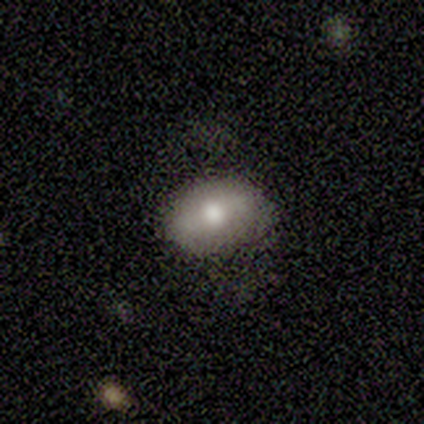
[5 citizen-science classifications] Volunteers were most divided on "smooth or featured": featured or disk: 60%, smooth: 40%, star or artifact: 0%. More confident: edge-on disk — no (100%); bar — no (100%); merging — none (100%); spiral arms — no (67%); bulge size — moderate (67%).